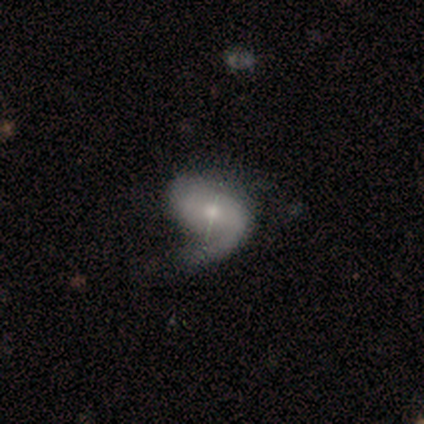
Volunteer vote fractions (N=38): Volunteers were most divided on "spiral arm count" (2-way tie): 1: 48%, 2: 48%, can't tell: 4%, 3: 0%, 4: 0%, more than 4: 0%. Remaining: spiral arms — yes (93%); edge-on disk — no (90%); smooth or featured — featured or disk (79%); bulge size — small (67%); bar — no (52%); merging — none (49%); spiral winding — medium (40%).